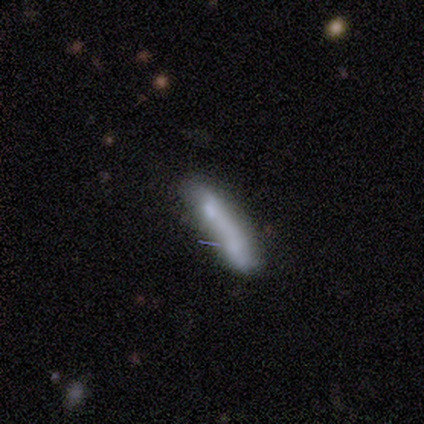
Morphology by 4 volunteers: smooth_or_featured: featured or disk (p=0.75) [alt: smooth p=0.25]
disk_edge_on: yes (p=0.67) [alt: no p=0.33]
edge_on_bulge: boxy (p=0.50) [tied with: none p=0.50]
merging: none (p=0.75) [alt: merger p=0.25]